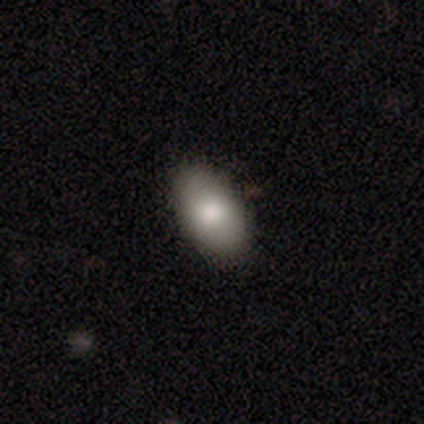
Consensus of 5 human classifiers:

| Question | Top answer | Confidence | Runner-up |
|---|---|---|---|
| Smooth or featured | smooth | 80% | featured or disk (20%) |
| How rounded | in between | 100% | — |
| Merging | none | 80% | minor disturbance (20%) |